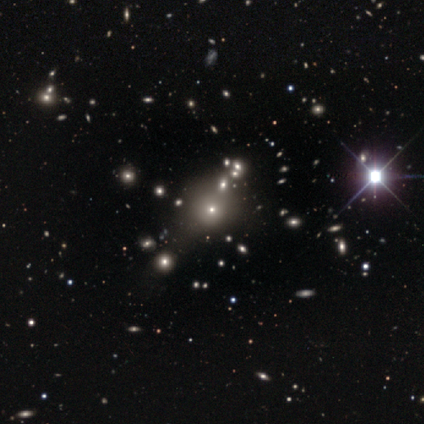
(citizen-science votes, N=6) This appears to be a smooth galaxy with no disk features (33%, tied with featured or disk and star or artifact) that is round (100%). Merging: none (50%).